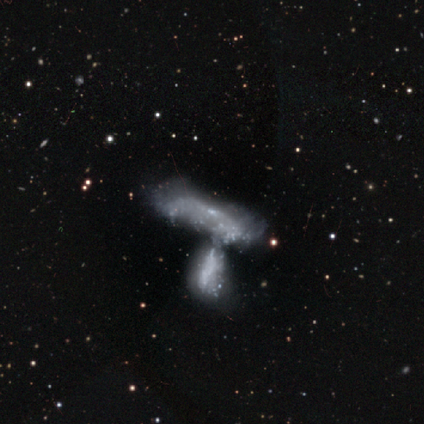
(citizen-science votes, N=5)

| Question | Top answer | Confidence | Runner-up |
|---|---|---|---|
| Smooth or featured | smooth | 60% | featured or disk (40%) |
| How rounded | in between | 67% | cigar-shaped (33%) |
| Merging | merger | 60% | major disturbance (40%) |